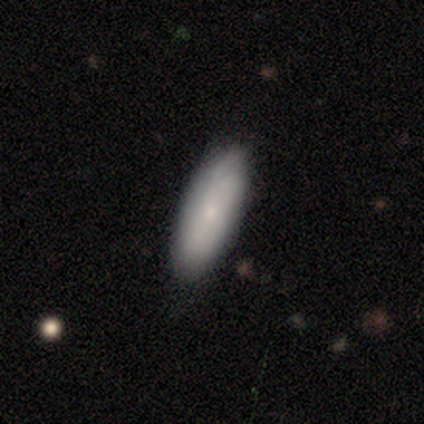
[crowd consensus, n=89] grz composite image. It shows a smooth galaxy with no disk features (78%) that is in between round and cigar-shaped (61%). Merging: none (75%).